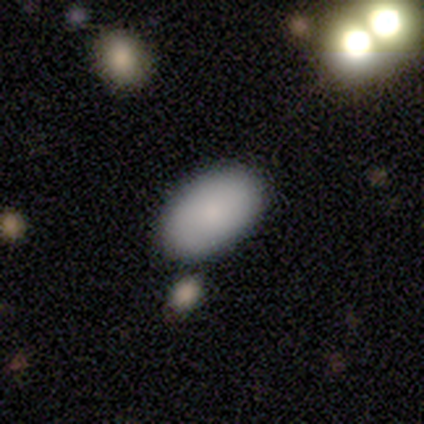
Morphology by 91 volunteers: type=smooth (82%); roundness=in between (88%); merging=none (78%).